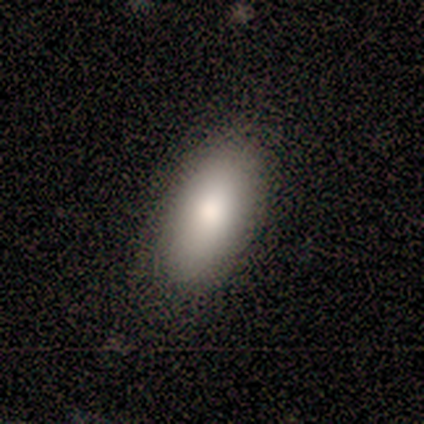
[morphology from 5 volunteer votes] Overall: smooth (80%). How rounded: in between (100%). Merging: none (80%).